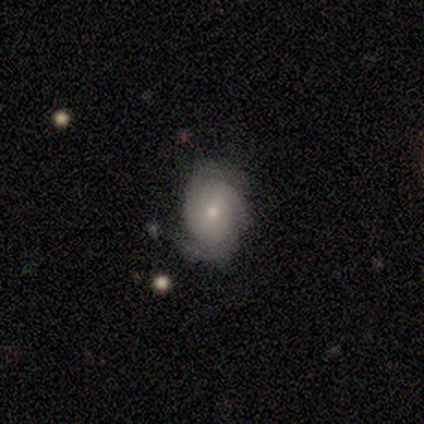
Overall: featured or disk (67%; smooth 33%). Edge-on disk: no (100%). Bar: strong (50%, tied with no). Spiral arms: yes (100%). Spiral arm count: 2 (50%, tied with 3). Spiral winding: tight (50%, tied with medium). Bulge size: moderate (50%, tied with small). Merging: none (100%).